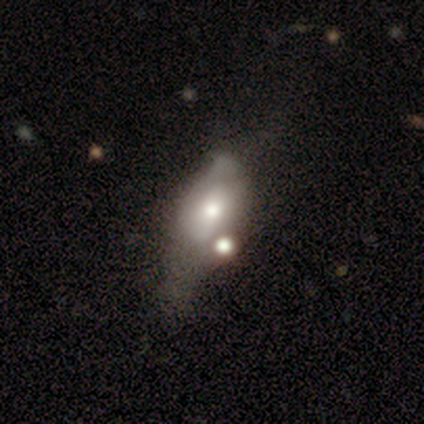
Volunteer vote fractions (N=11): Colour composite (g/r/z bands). It shows a smooth galaxy with no disk features (45%, tied with featured or disk) that is in between round and cigar-shaped (100%). Merging: minor disturbance (50%).